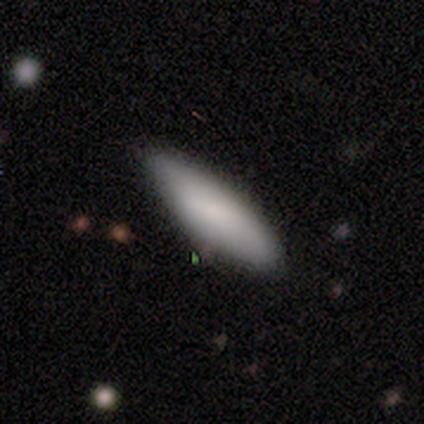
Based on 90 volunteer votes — Smooth or featured? 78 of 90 (87%) said smooth. How rounded? 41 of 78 (53%) said cigar-shaped. Merging? 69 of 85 (81%) said none.